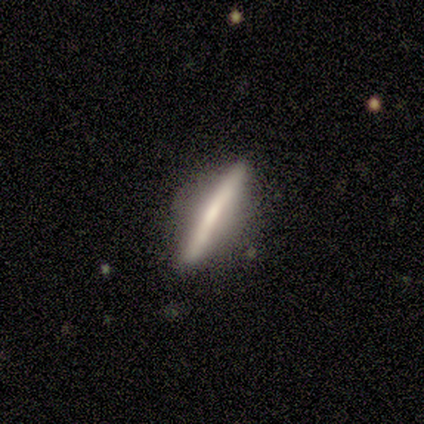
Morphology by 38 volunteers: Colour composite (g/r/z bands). It shows a featured or disk galaxy (66%) viewed edge-on (92%) with no central bulge (39%, tied with rounded). Merging: none (78%).